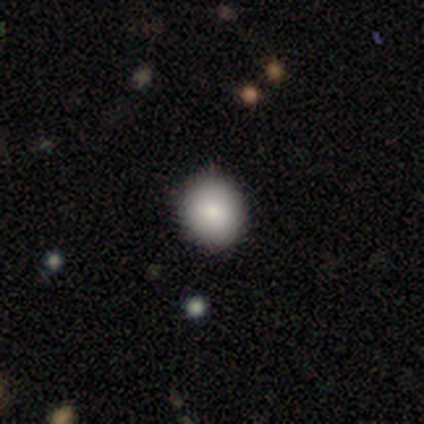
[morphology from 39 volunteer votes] Smooth or featured?
  - smooth: 92% *
  - star or artifact: 8%
  - featured or disk: 0%
How rounded?
  - round: 92% *
  - in between: 8%
  - cigar-shaped: 0%
Merging?
  - none: 100% *
  - minor disturbance: 0%
  - major disturbance: 0%
  - merger: 0%